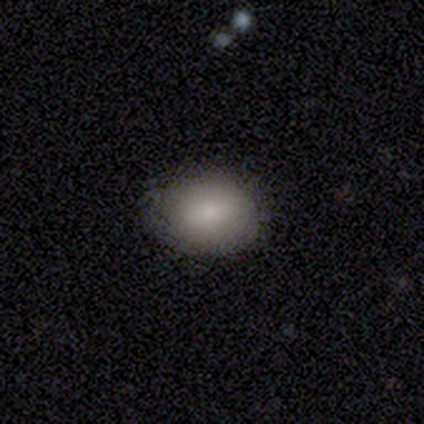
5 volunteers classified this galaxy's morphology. A smooth galaxy with no disk features (100%) that is in between round and cigar-shaped (80%). Merging: none (80%).